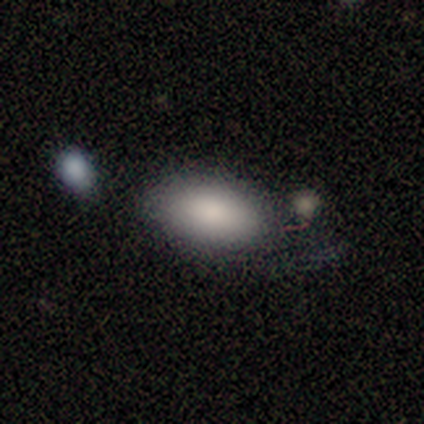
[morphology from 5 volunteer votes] Smooth or featured? smooth (100%)
How rounded? in between (100%)
Merging? none (80%)